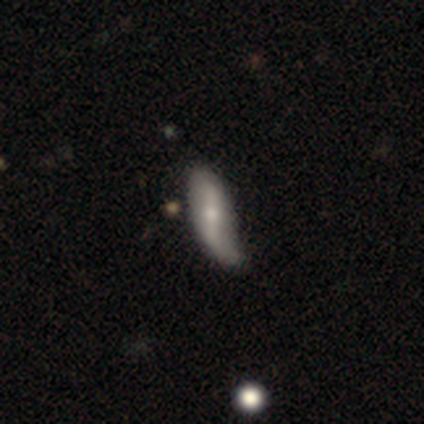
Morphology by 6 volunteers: A smooth galaxy with no disk features (83%) that is cigar-shaped (80%).

Vote fractions:
- Smooth or featured? smooth: 83% / featured or disk: 17% / star or artifact: 0%
- How rounded? cigar-shaped: 80% / in between: 20% / round: 0%
- Merging? none: 50% / minor disturbance: 17% / major disturbance: 17% / merger: 17%